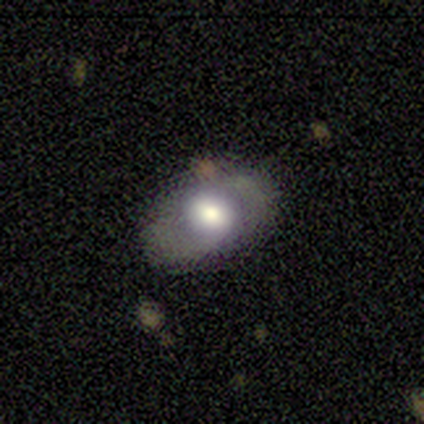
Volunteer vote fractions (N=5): This is likely a smooth galaxy (60%). How rounded: clearly in between (100%). Merging: clearly none (80%).